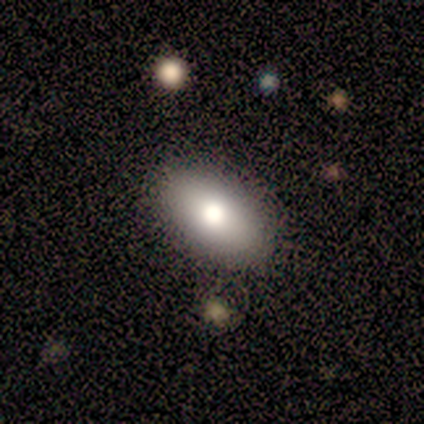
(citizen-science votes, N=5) Morphology: type=smooth (60%); roundness=in between (100%); merging=none (75%).